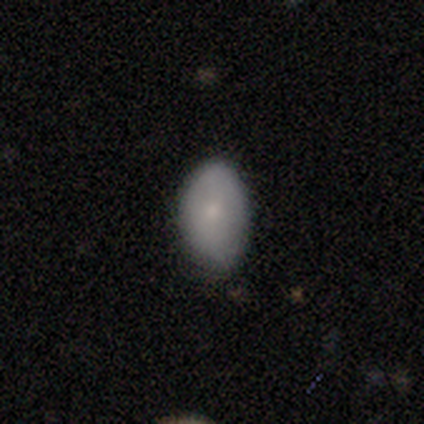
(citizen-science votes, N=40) smooth 75%, featured or disk 18%, star or artifact 8%. Down the decision tree: how rounded — in between (90%); merging — none (73%).